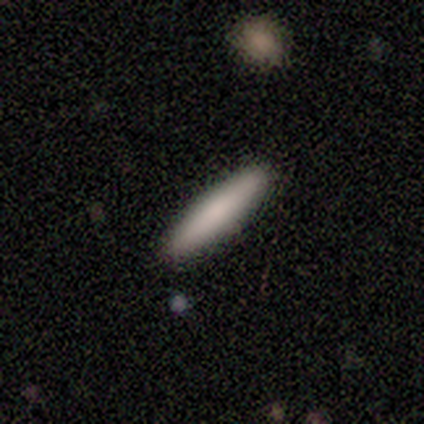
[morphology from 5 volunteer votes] smooth_or_featured: smooth (p=0.80) [alt: featured or disk p=0.20]
how_rounded: cigar-shaped (p=1.00)
merging: none (p=0.80) [alt: major disturbance p=0.20]